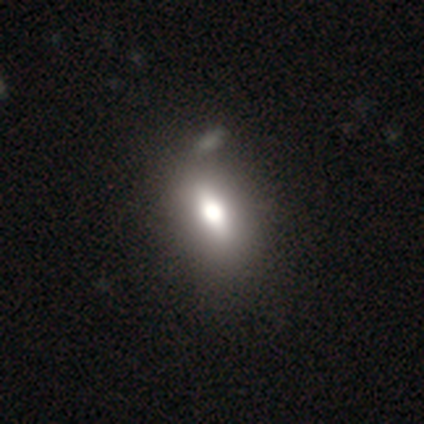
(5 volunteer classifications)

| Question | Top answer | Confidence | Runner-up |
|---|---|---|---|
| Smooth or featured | smooth | 80% | star or artifact (20%) |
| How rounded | in between | 75% | round (25%) |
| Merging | none | 75% | minor disturbance (25%) |